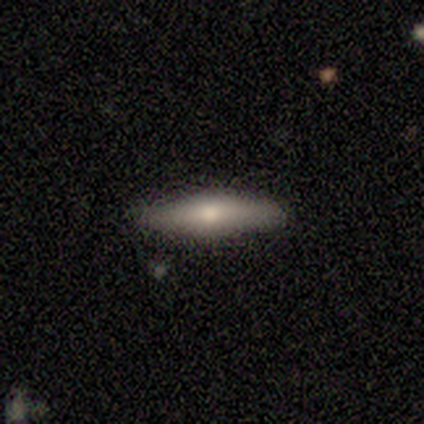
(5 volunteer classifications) This is likely a featured or disk galaxy (60%). It is likely viewed edge-on (67%). Edge-on bulge: clearly rounded (100%). Merging: clearly none (100%).